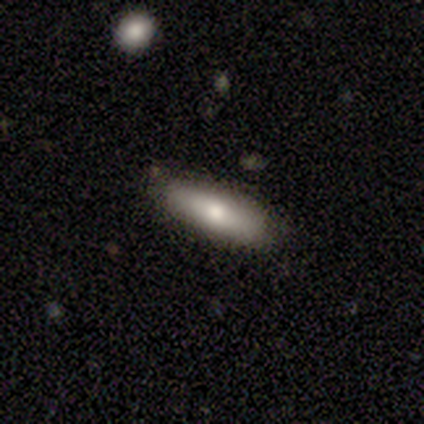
smooth 80%, featured or disk 20%, star or artifact 0%. Down the decision tree: how rounded — in between (50%, tied with cigar-shaped); merging — none (100%).